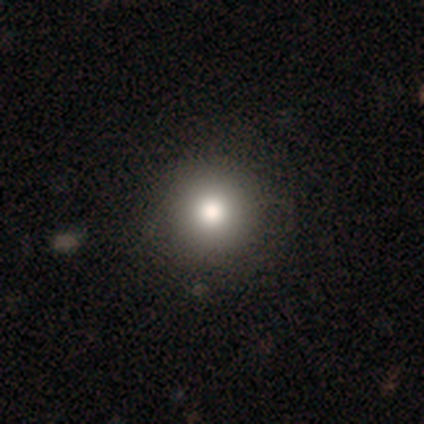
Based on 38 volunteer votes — Overall: smooth (71%). How rounded: round (96%). Merging: none (94%).